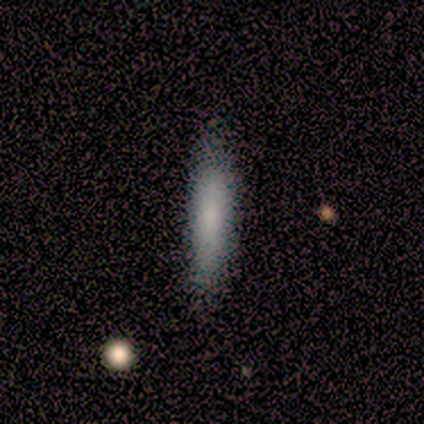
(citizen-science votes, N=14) smooth_or_featured: smooth (p=0.64) [alt: featured or disk p=0.29]
how_rounded: cigar-shaped (p=0.89) [alt: in between p=0.11]
merging: none (p=0.77) [alt: minor disturbance p=0.23]